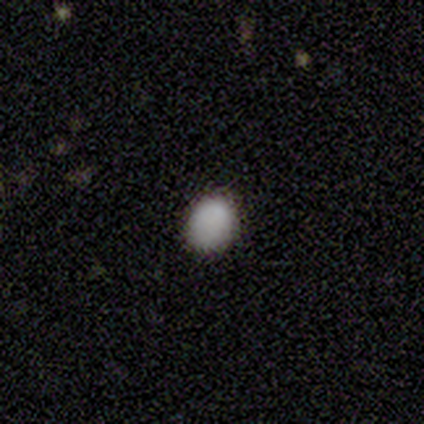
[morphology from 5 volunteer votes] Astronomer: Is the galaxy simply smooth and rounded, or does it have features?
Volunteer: smooth — 60% (runner-up: star or artifact, 40%).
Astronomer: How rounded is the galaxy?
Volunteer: round — 67%.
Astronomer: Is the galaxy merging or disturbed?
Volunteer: none — 67%.